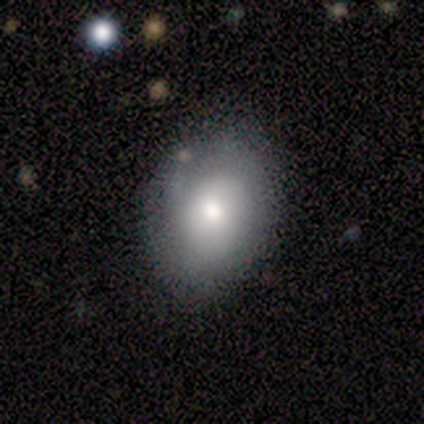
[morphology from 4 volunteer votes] type=smooth (100%); roundness=in between (75%); merging=none (50%, tied with minor disturbance).